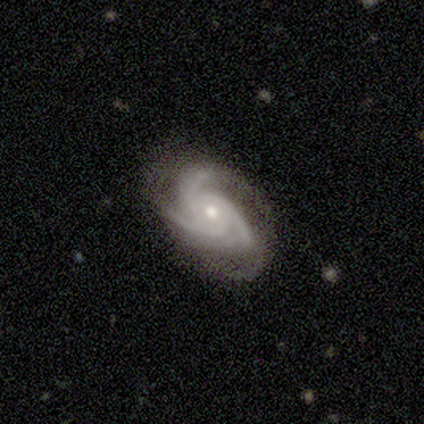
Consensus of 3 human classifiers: smooth-or-featured: featured or disk: 100% | smooth: 0% | star or artifact: 0%
  disk-edge-on: no: 100% | yes: 0%
    bar: no: 100% | strong: 0% | weak: 0%
    has-spiral-arms: yes: 100% | no: 0%
      spiral-winding: medium: 67% | tight: 33% | loose: 0%
      spiral-arm-count: 3: 100% | 1: 0% | 2: 0% | 4: 0% | more than 4: 0% | can't tell: 0%
    bulge-size: small: 67% | moderate: 33% | dominant: 0% | large: 0% | none: 0%
  merging: none: 100% | minor disturbance: 0% | major disturbance: 0% | merger: 0%